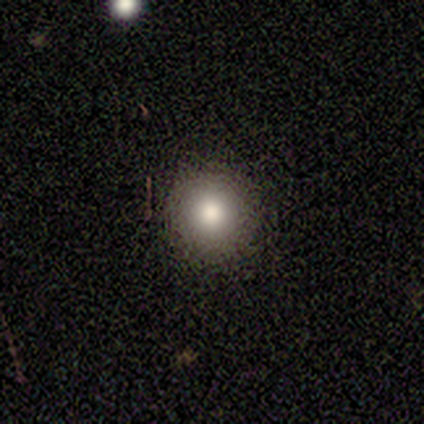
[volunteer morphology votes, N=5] Overall: smooth (60%; featured or disk 40%). How rounded: round (67%; in between 33%). Merging: none (80%).